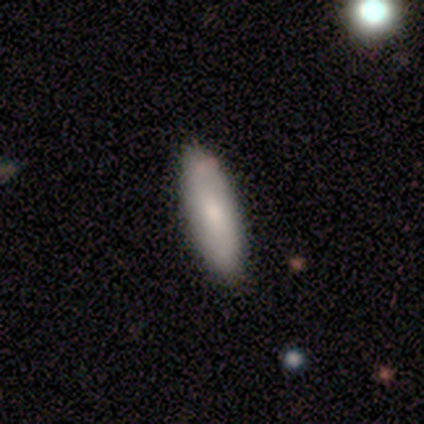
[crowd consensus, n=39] Overall: smooth (67%). How rounded: in between (73%). Merging: none (97%).